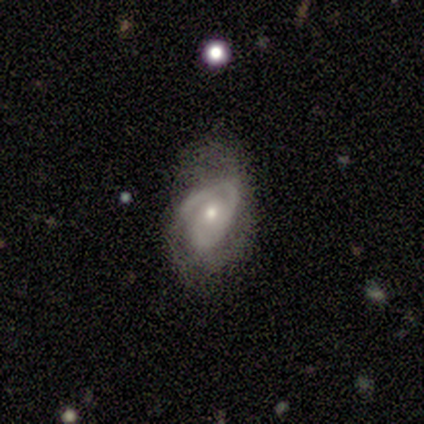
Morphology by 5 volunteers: Smooth or featured? 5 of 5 (100%) said featured or disk. Edge-on disk? 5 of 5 (100%) said no. Bar? 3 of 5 (60%) said no. Spiral arms? 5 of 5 (100%) said yes. Spiral winding? 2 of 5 (40%, tied with loose) said tight. Spiral arm count? 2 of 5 (40%) said 2. Bulge size? 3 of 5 (60%) said moderate. Merging? 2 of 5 (40%, tied with major disturbance) said minor disturbance.